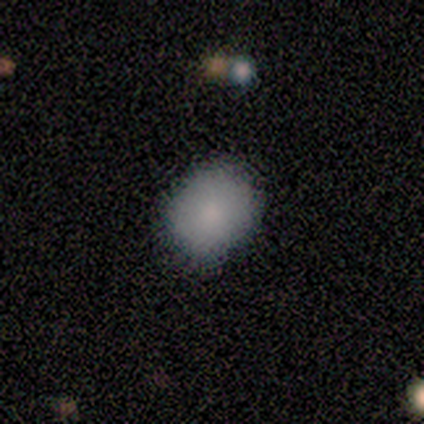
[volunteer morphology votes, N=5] Overall: smooth (80%). How rounded: round (50%, tied with in between). Merging: none (100%).